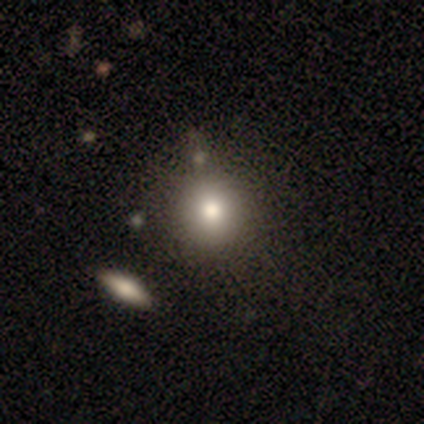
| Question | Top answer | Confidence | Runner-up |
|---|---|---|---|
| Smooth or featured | featured or disk | 60% | smooth (20%) |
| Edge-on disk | no | 100% | — |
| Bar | no | 67% | weak (33%) |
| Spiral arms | no | 100% | — |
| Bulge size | moderate | 67% | large (33%) |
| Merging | none | 75% | minor disturbance (25%) |